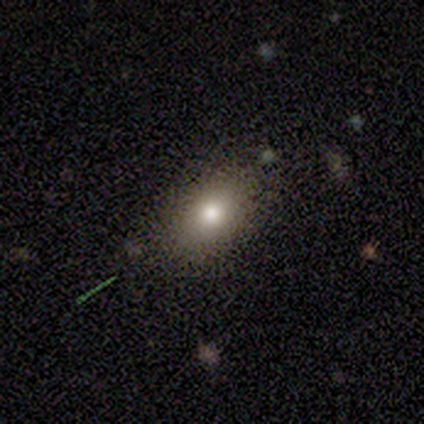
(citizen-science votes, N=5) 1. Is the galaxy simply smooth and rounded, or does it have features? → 60% smooth, 20% featured or disk, 20% star or artifact.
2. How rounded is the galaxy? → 100% in between, 0% round, 0% cigar-shaped.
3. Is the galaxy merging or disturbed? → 75% none, 25% minor disturbance, 0% major disturbance, 0% merger.